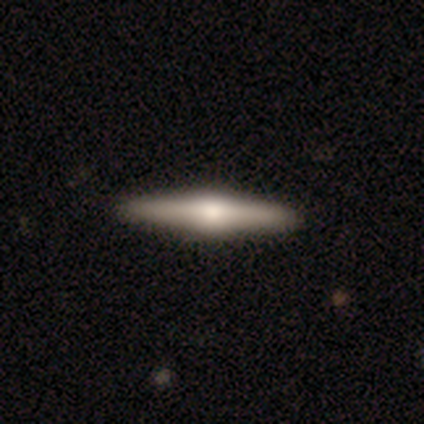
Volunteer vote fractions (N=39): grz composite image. It shows a featured or disk galaxy (85%) viewed edge-on (97%) with a rounded central bulge (97%). Merging: none (92%).